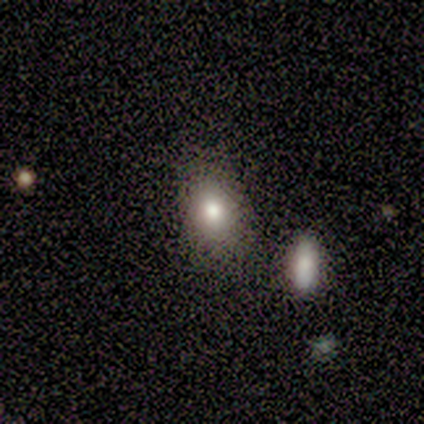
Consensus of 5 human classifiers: This is clearly a smooth galaxy (100%). How rounded: clearly in between (80%). Merging: clearly none (100%).